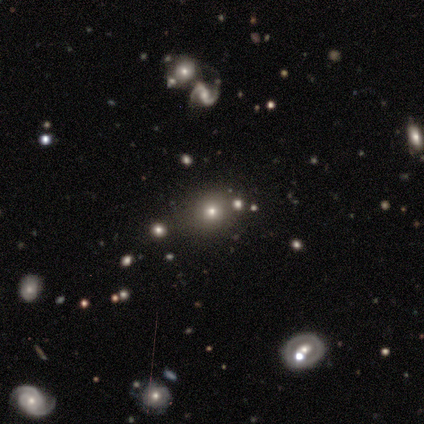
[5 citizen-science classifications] This is marginally a smooth galaxy (40%, tied with star or artifact). How rounded: clearly round (100%). Merging: likely none (67%).